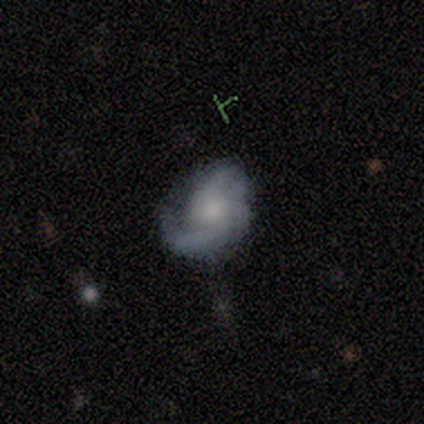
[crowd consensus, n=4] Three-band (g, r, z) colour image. It shows a smooth galaxy with no disk features (50%) that is in between round and cigar-shaped (100%). Merging: minor disturbance (100%).